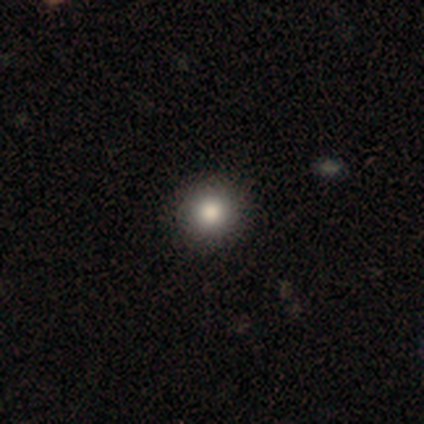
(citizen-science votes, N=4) Smooth or featured?
  - smooth: 75% *
  - star or artifact: 25%
  - featured or disk: 0%
How rounded?
  - round: 100% *
  - in between: 0%
  - cigar-shaped: 0%
Merging?
  - none: 100% *
  - minor disturbance: 0%
  - major disturbance: 0%
  - merger: 0%